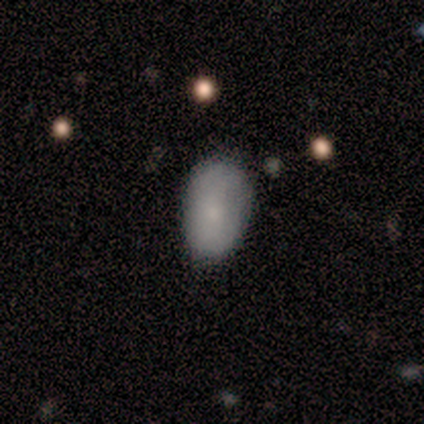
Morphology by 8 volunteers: Smooth or featured? smooth (100%)
How rounded? in between (100%)
Merging? none (75%)